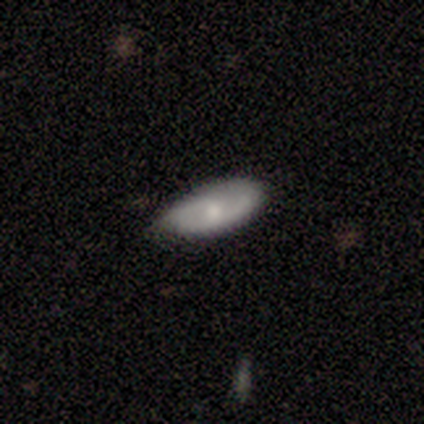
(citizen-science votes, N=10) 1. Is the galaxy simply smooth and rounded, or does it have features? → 60% smooth, 40% featured or disk, 0% star or artifact.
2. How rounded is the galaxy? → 100% in between, 0% round, 0% cigar-shaped.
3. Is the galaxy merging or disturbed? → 50% none, 40% minor disturbance, 10% major disturbance, 0% merger.